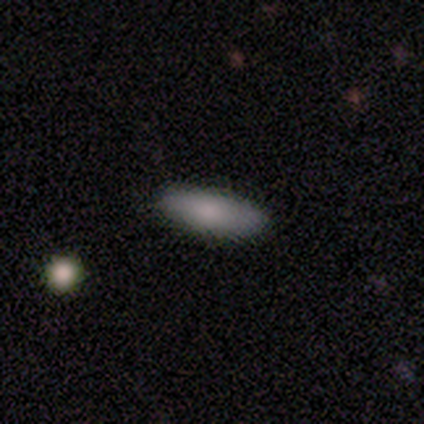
A smooth galaxy with no disk features (60%) that is cigar-shaped (67%).

Vote fractions:
- Smooth or featured? smooth: 60% / featured or disk: 40% / star or artifact: 0%
- How rounded? cigar-shaped: 67% / in between: 33% / round: 0%
- Merging? none: 80% / minor disturbance: 20% / major disturbance: 0% / merger: 0%